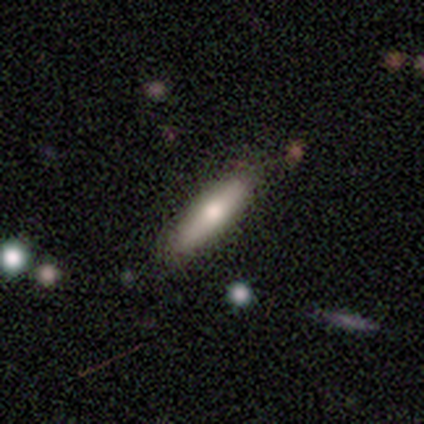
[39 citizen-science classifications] Overall: smooth (67%; featured or disk 28%). How rounded: cigar-shaped (81%). Merging: none (89%).